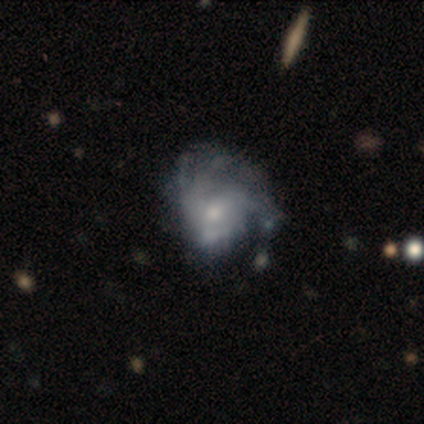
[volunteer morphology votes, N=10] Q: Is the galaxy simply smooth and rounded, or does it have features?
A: featured or disk — 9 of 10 (90%).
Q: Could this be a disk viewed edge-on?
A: no — 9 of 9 (100%).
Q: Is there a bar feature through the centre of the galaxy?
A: no — 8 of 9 (89%).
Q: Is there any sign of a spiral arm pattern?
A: no — 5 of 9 (56%).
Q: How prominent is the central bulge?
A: small — 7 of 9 (78%).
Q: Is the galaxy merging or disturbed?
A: major disturbance — 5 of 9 (56%).